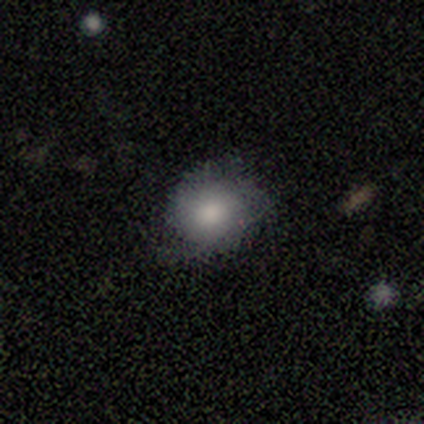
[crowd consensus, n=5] Smooth or featured? smooth (60%)
How rounded? round (67%)
Merging? none (50%, tied with minor disturbance)